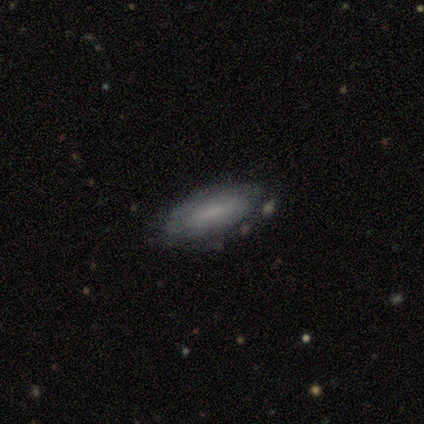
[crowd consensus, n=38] smooth_or_featured: smooth (p=0.55) [alt: featured or disk p=0.42]
how_rounded: in between (p=0.90) [alt: round p=0.05]
merging: none (p=0.95) [alt: minor disturbance p=0.05]